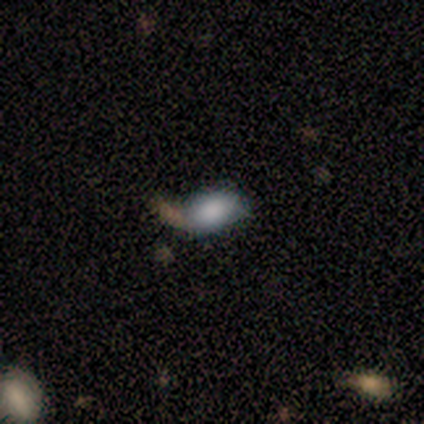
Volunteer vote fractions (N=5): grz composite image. It shows a smooth galaxy with no disk features (80%) that is in between round and cigar-shaped (100%). Merging: merger (75%).